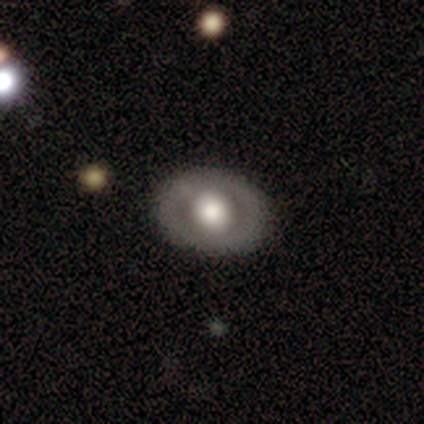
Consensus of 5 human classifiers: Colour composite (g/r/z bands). It shows a smooth galaxy with no disk features (40%, tied with featured or disk) that is in between round and cigar-shaped (100%). Merging: none (75%).